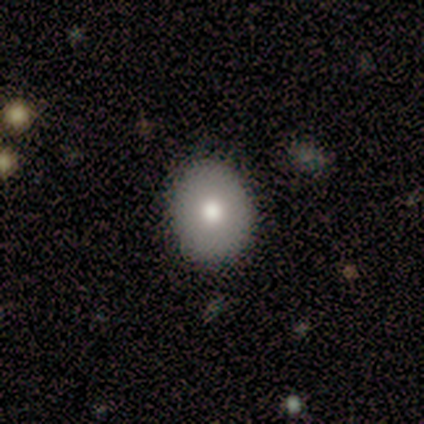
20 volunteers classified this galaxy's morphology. Smooth or featured? smooth (75%)
How rounded? round (60%)
Merging? none (89%)